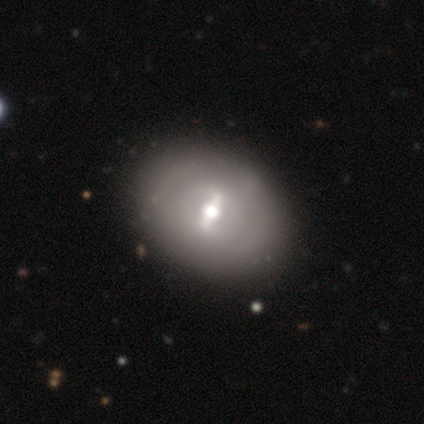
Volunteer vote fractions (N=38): smooth_or_featured: featured or disk (p=0.82) [alt: smooth p=0.18]
disk_edge_on: no (p=0.97) [alt: yes p=0.03]
bar: strong (p=0.57) [alt: weak p=0.40]
has_spiral_arms: no (p=0.73) [alt: yes p=0.27]
bulge_size: moderate (p=0.63) [alt: small p=0.20]
merging: none (p=0.53) [alt: major disturbance p=0.05]